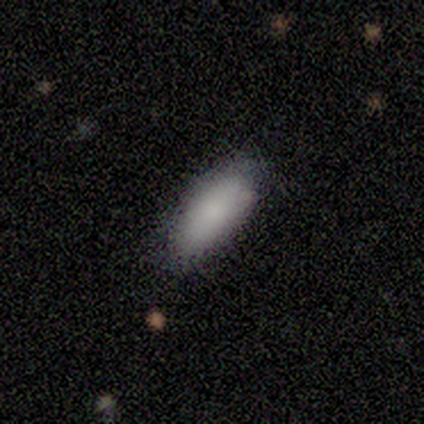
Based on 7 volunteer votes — smooth 86%, featured or disk 14%, star or artifact 0%. Down the decision tree: how rounded — in between (83%); merging — none (86%).